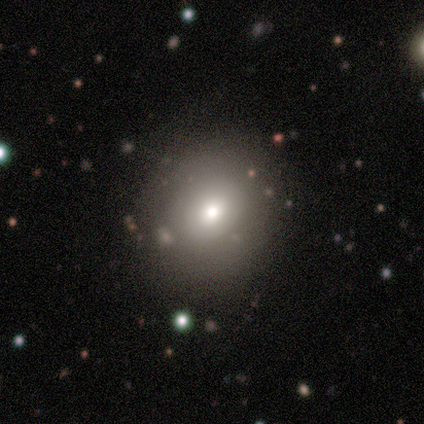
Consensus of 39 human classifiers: Smooth or featured? 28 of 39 (72%) said smooth. How rounded? 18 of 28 (64%) said round. Merging? 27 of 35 (77%) said none.